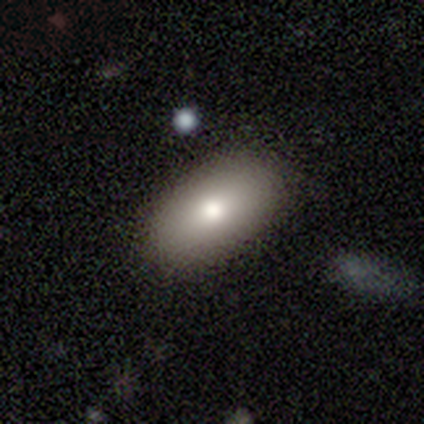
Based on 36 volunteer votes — smooth_or_featured: smooth (p=0.81) [alt: featured or disk p=0.14]
how_rounded: in between (p=0.93) [alt: round p=0.03]
merging: none (p=0.82) [alt: minor disturbance p=0.18]